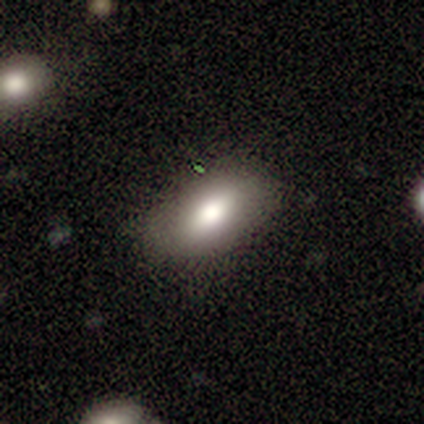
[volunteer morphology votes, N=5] Smooth or featured: smooth — 100%
How rounded: in between — 100%
Merging: none — 100%